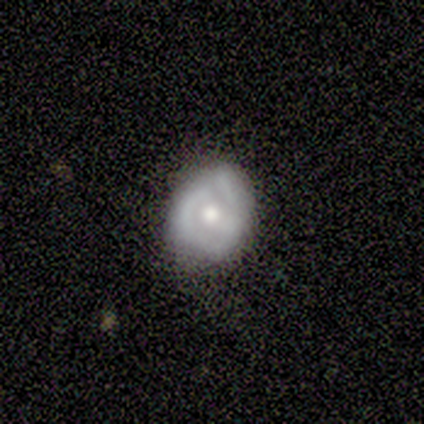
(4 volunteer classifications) Volunteers were most divided on "merging" (2-way tie): none: 50%, minor disturbance: 50%, major disturbance: 0%, merger: 0%. More confident: smooth or featured — featured or disk (100%); edge-on disk — no (100%); bar — no (100%); spiral arms — no (100%); bulge size — moderate (100%).